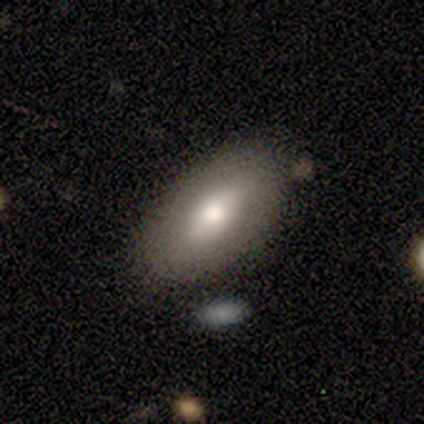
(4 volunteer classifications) A smooth galaxy with no disk features (75%) that is in between round and cigar-shaped (100%). Merging: none (50%, tied with minor disturbance).